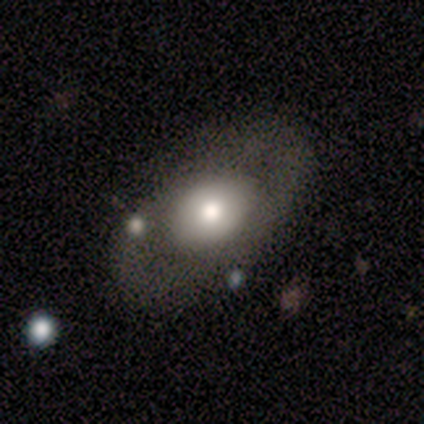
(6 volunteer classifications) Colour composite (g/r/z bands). It shows a smooth galaxy with no disk features (67%) that is in between round and cigar-shaped (75%). Merging: none (67%).